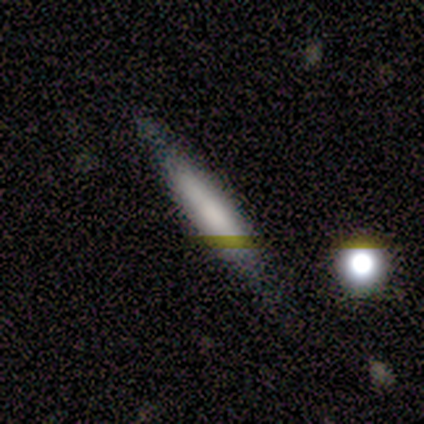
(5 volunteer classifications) A smooth galaxy with no disk features (80%) that is cigar-shaped (100%).

Vote fractions:
- Smooth or featured? smooth: 80% / featured or disk: 20% / star or artifact: 0%
- How rounded? cigar-shaped: 100% / round: 0% / in between: 0%
- Merging? none: 60% / minor disturbance: 40% / major disturbance: 0% / merger: 0%